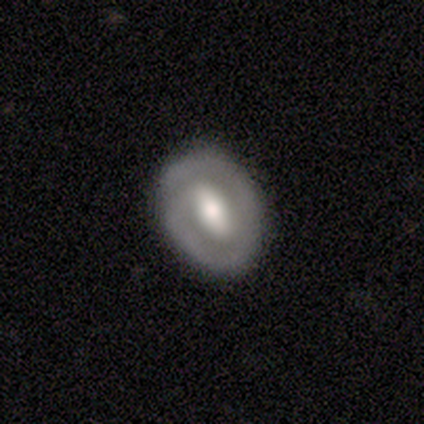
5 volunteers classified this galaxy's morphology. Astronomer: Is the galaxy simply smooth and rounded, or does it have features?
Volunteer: featured or disk — 80%.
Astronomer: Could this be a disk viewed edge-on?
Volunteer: no — 100%.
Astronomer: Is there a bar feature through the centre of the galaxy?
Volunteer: strong — 50%, tied with weak at 50%.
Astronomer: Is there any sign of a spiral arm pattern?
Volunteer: yes — 75%.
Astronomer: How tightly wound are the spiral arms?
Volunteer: tight — 67%.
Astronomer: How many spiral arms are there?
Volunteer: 2 — 100%.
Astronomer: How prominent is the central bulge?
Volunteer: large — 75%.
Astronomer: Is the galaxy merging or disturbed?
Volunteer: none — 100%.